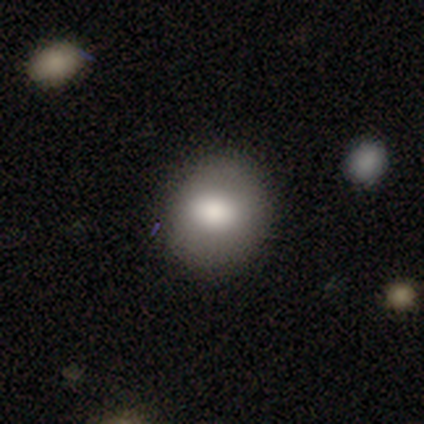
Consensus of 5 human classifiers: This is clearly a smooth galaxy (100%). How rounded: clearly round (80%). Merging: clearly none (100%).